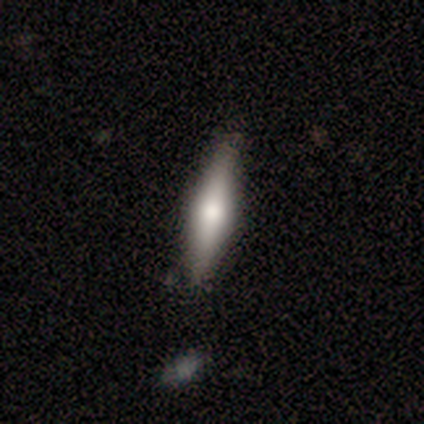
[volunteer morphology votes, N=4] A smooth galaxy with no disk features (50%, tied with featured or disk) that is cigar-shaped (100%). Merging: none (100%).